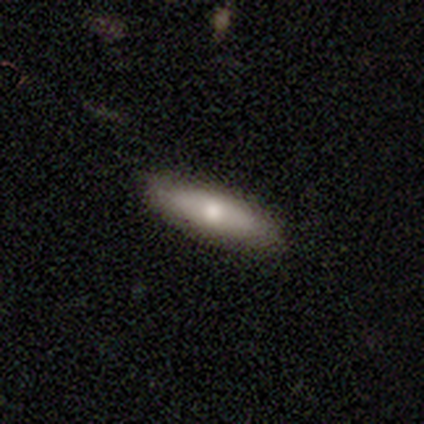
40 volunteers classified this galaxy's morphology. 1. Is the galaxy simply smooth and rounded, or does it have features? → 60% smooth, 30% featured or disk, 10% star or artifact.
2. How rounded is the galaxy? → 83% cigar-shaped, 17% in between, 0% round.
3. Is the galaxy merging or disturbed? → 97% none, 3% minor disturbance, 0% major disturbance, 0% merger.